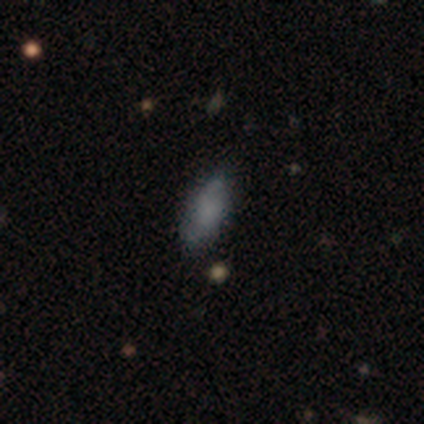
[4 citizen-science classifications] This is possibly a smooth galaxy (50%). How rounded: clearly in between (100%). Merging: clearly none (100%).